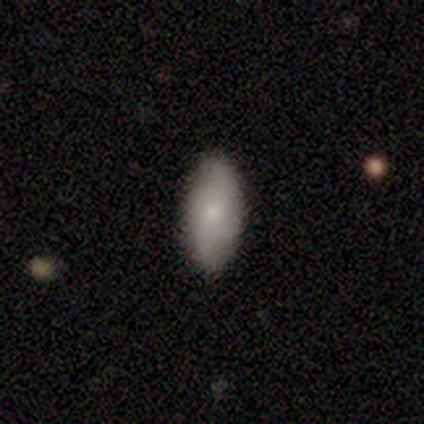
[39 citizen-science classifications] Smooth or featured?
  - smooth: 79% *
  - featured or disk: 18%
  - star or artifact: 3%
How rounded?
  - in between: 90% *
  - cigar-shaped: 10%
  - round: 0%
Merging?
  - none: 87% *
  - minor disturbance: 8%
  - major disturbance: 5%
  - merger: 0%